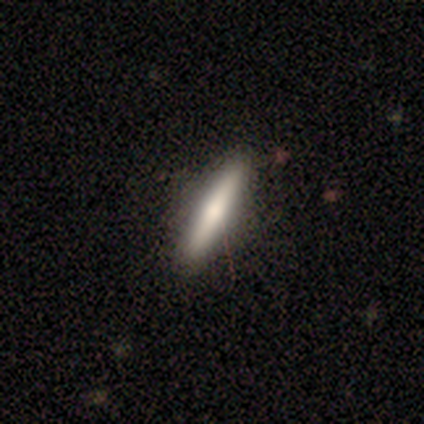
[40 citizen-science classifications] A smooth galaxy with no disk features (55%) that is cigar-shaped (100%).

Vote fractions:
- Smooth or featured? smooth: 55% / featured or disk: 38% / star or artifact: 8%
- How rounded? cigar-shaped: 100% / round: 0% / in between: 0%
- Merging? none: 76% / minor disturbance: 5% / merger: 3% / major disturbance: 0%